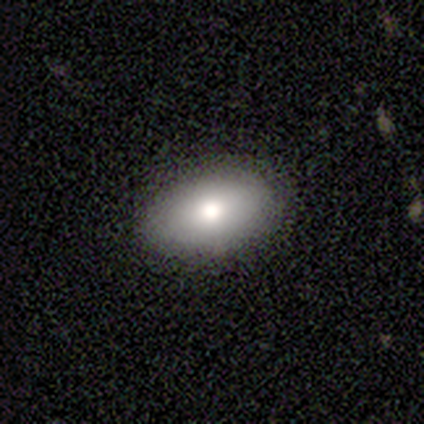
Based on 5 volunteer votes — This appears to be a smooth galaxy with no disk features (60%) that is in between round and cigar-shaped (100%). Merging: none (75%).